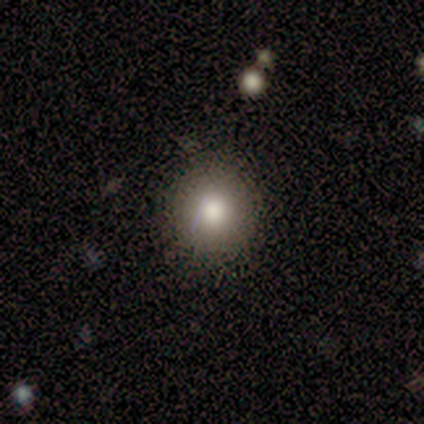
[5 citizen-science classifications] Volunteers were most divided on "how rounded": round: 75%, in between: 25%, cigar-shaped: 0%. More confident: merging — none (100%); smooth or featured — smooth (80%).